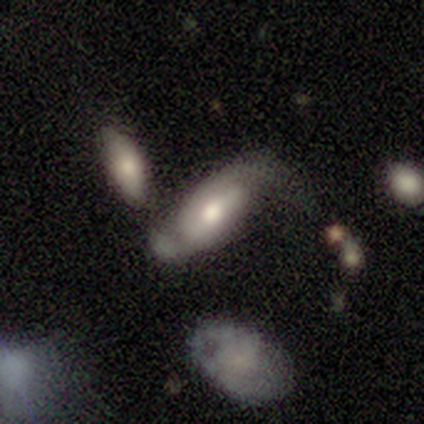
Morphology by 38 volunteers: Volunteers were most divided on "merging" (2-way tie): none: 26%, major disturbance: 26%, minor disturbance: 24%, merger: 24%. Remaining: edge-on disk — no (88%); spiral arms — yes (76%); smooth or featured — featured or disk (63%); bulge size — moderate (62%); spiral arm count — 2 (56%); spiral winding — loose (44%); bar — strong (38%).